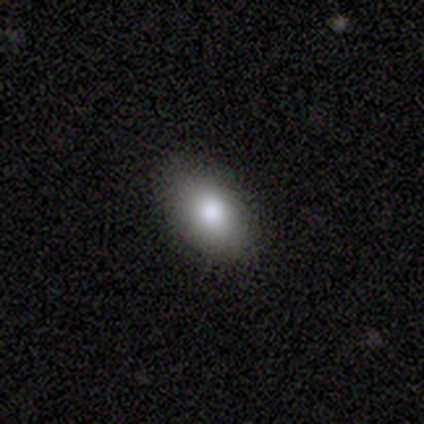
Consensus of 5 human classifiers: Smooth or featured? 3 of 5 (60%) said smooth. How rounded? 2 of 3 (67%) said in between. Merging? 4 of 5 (80%) said none.